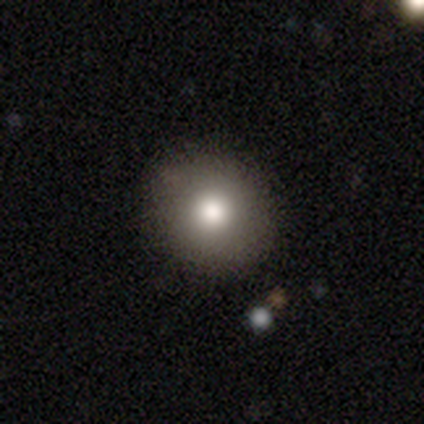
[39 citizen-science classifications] Volunteers were most divided on "smooth or featured": smooth: 82%, featured or disk: 10%, star or artifact: 8%. More confident: how rounded — round (97%); merging — none (92%).